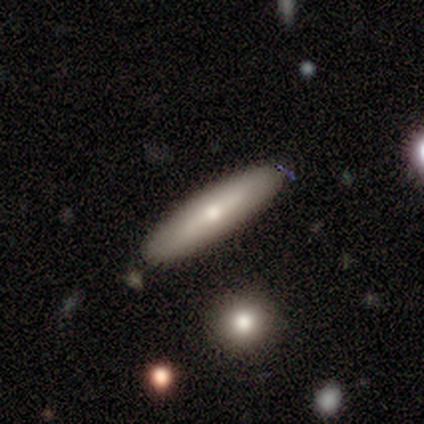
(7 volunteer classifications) Smooth or featured? 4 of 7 (57%) said smooth. How rounded? 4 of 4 (100%) said cigar-shaped. Merging? 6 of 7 (86%) said none.